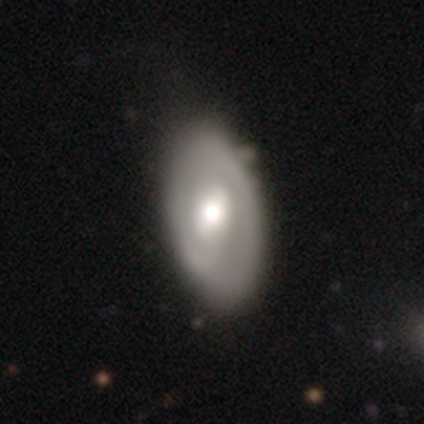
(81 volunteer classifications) smooth-or-featured: featured or disk: 64% | smooth: 32% | star or artifact: 4%
  disk-edge-on: no: 88% | yes: 12%
    bar: weak: 50% | no: 41% | strong: 9%
    has-spiral-arms: yes: 52% | no: 48%
      spiral-winding: tight: 54% | medium: 38% | loose: 8%
      spiral-arm-count: 2: 71% | can't tell: 25% | 1: 4% | 3: 0% | 4: 0% | more than 4: 0%
    bulge-size: moderate: 65% | large: 26% | dominant: 7% | small: 2% | none: 0%
  merging: none: 33% | minor disturbance: 13% | merger: 4% | major disturbance: 1%